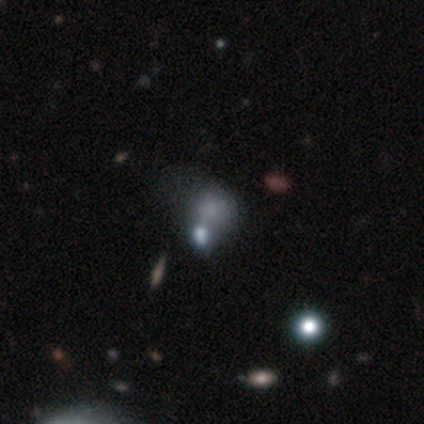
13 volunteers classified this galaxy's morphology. This appears to be a smooth galaxy with no disk features (69%) that is round (78%). Merging: merger (50%).